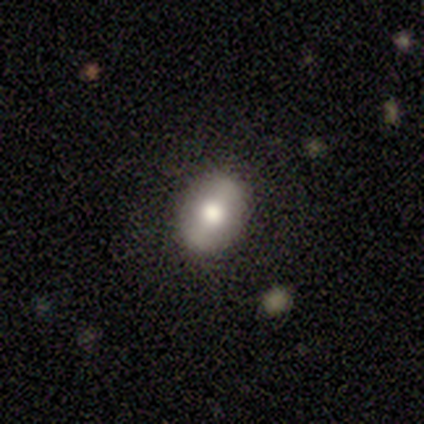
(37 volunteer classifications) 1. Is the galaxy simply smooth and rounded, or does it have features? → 65% smooth, 30% featured or disk, 5% star or artifact.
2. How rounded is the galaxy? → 79% in between, 21% round, 0% cigar-shaped.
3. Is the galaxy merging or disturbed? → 83% none, 17% minor disturbance, 0% major disturbance, 0% merger.